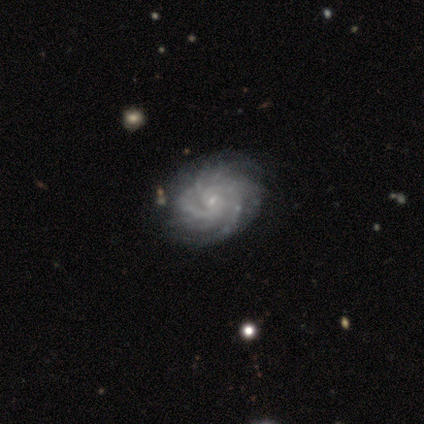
Morphology: type=featured or disk (100%); edge-on=no (100%); bar=weak (80%); spiral arms=yes (100%); winding=tight (80%); arm count=2 (40%, tied with can't tell); bulge=small (80%); merging=none (80%).